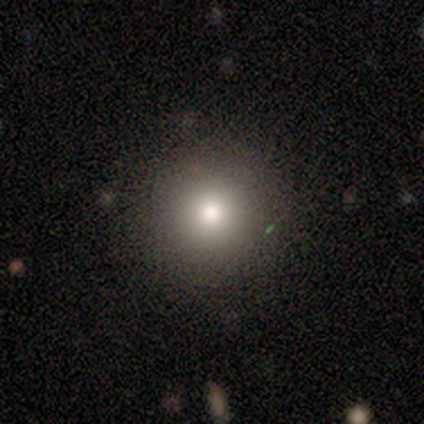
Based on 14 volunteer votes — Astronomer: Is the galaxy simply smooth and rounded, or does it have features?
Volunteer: smooth — 71%.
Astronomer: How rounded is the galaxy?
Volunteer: round — 80%.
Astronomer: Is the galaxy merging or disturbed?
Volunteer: none — 93%.